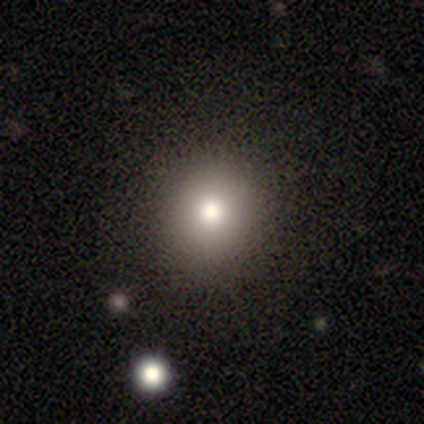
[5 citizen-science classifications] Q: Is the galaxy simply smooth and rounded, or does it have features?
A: smooth — 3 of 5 (60%).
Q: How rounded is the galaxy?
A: in between — 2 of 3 (67%).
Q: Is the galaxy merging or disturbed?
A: none — 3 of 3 (100%).